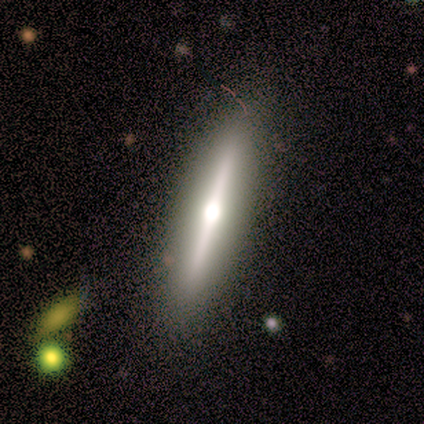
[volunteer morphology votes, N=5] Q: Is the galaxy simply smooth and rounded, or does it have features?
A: smooth — 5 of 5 (100%).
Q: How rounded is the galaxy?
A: cigar-shaped — 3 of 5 (60%).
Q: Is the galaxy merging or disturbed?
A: none — 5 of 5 (100%).